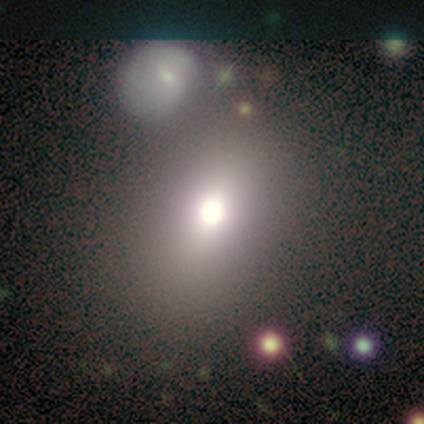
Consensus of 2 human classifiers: Q: Smooth or featured?
A: smooth (50%); tied with: star or artifact (50%)
Q: How rounded?
A: in between (100%)
Q: Merging?
A: none (100%)